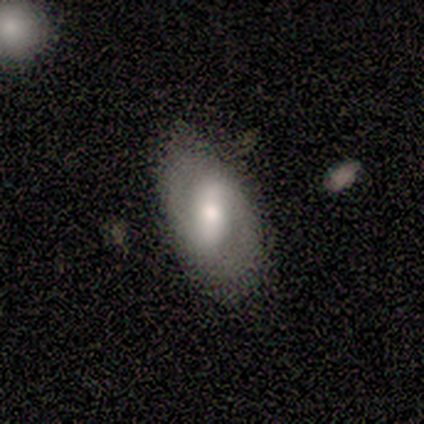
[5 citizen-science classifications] smooth_or_featured: smooth (p=0.60) [alt: featured or disk p=0.40]
how_rounded: in between (p=1.00)
merging: none (p=0.80) [alt: minor disturbance p=0.20]